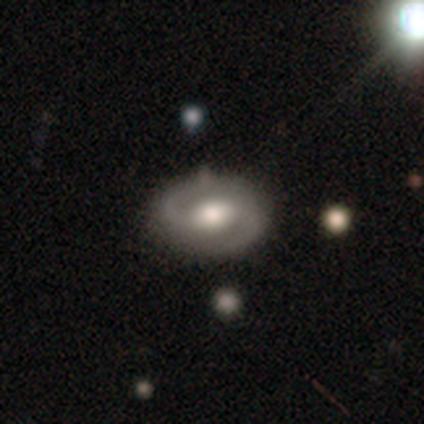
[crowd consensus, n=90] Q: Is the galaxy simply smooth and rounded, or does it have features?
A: featured or disk — 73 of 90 (81%).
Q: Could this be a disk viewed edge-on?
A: no — 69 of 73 (95%).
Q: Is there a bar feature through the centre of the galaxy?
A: weak — 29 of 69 (42%).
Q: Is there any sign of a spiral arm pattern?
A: yes — 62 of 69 (90%).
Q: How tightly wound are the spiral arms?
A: medium — 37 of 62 (60%).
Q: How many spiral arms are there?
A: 2 — 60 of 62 (97%).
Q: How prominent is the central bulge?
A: moderate — 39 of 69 (57%).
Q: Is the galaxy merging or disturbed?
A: none — 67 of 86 (78%).